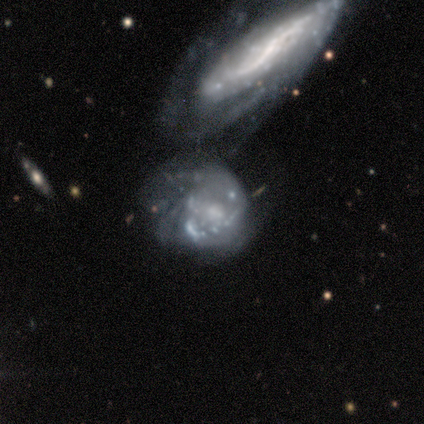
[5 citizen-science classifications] Smooth or featured? featured or disk (100%)
Edge-on disk? no (100%)
Bar? no (80%)
Spiral arms? yes (100%)
Spiral winding? tight (60%)
Spiral arm count? can't tell (60%)
Bulge size? small (60%)
Merging? merger (100%)